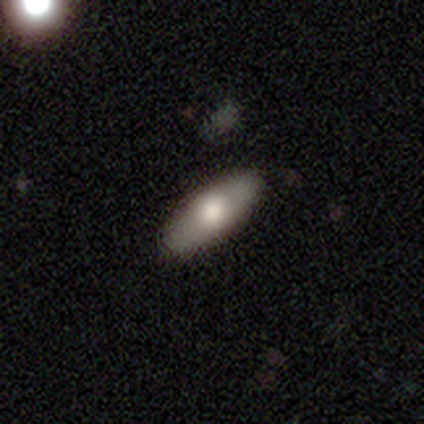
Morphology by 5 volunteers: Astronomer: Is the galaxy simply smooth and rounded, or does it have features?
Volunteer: smooth — 100%.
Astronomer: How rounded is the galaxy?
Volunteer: in between — 80%.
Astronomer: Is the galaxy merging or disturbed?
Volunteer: none — 100%.